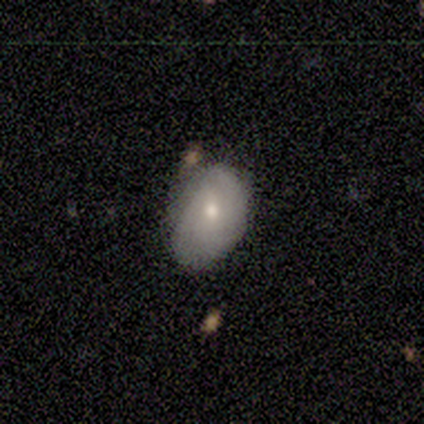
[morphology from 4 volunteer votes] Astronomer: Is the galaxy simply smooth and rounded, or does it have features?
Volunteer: smooth — 75%.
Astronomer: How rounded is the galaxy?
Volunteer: in between — 100%.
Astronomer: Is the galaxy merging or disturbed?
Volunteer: major disturbance — 50%.